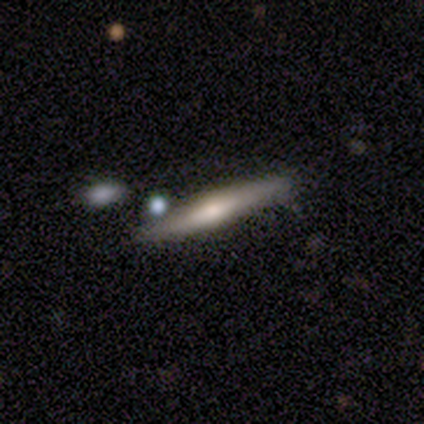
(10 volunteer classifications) Smooth or featured: featured or disk — 70% (smooth — 30%)
Edge-on disk: yes — 100%
Edge-on bulge: rounded — 71% (boxy — 14%)
Merging: none — 70% (major disturbance — 20%)